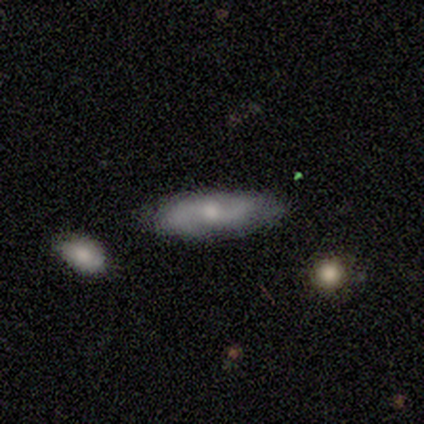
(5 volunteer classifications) Smooth or featured? 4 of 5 (80%) said featured or disk. Edge-on disk? 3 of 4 (75%) said no. Bar? 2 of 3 (67%) said no. Spiral arms? 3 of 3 (100%) said yes. Spiral winding? 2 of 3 (67%) said medium. Spiral arm count? 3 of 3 (100%) said 2. Bulge size? 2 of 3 (67%) said moderate. Merging? 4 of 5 (80%) said none.